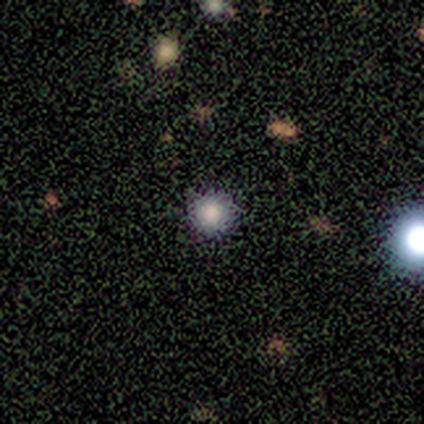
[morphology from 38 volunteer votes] Smooth or featured? smooth (66%)
How rounded? round (100%)
Merging? none (90%)